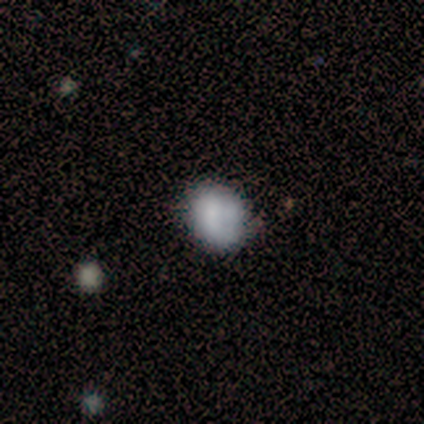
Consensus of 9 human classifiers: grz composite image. It shows a smooth galaxy with no disk features (44%) that is round (75%). Merging: none (71%).